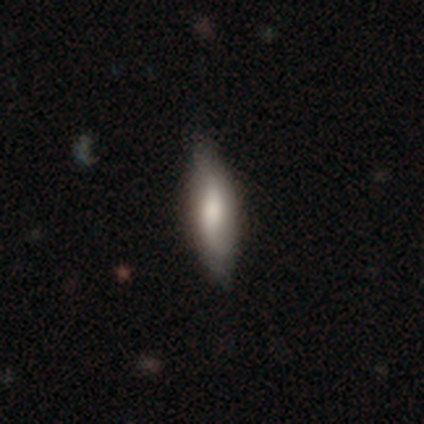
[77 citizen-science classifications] Smooth or featured: smooth — 58% (featured or disk — 34%)
How rounded: cigar-shaped — 60% (in between — 40%)
Merging: none — 30% (minor disturbance — 18%)